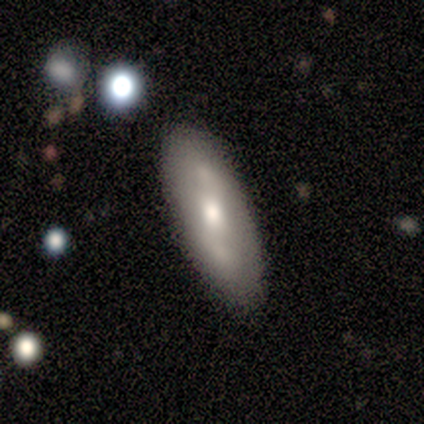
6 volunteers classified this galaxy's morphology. A featured or disk galaxy (67%) viewed edge-on (50%, tied with no) with a boxy central bulge (50%, tied with rounded). Merging: none (60%).